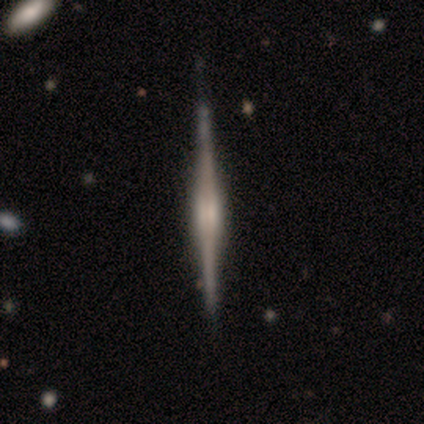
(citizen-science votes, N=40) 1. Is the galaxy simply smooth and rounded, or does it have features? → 88% featured or disk, 12% smooth, 0% star or artifact.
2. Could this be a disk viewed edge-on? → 100% yes, 0% no.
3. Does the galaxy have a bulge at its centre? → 51% boxy, 40% rounded, 9% none.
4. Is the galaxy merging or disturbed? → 55% none, 5% minor disturbance, 2% major disturbance, 2% merger.